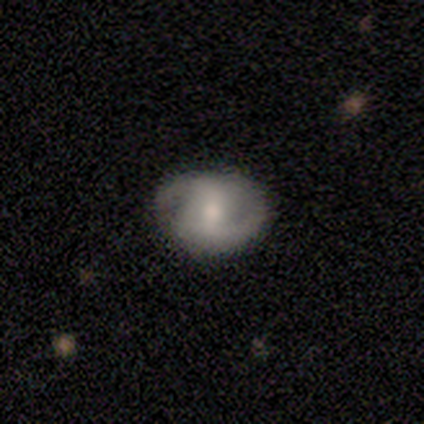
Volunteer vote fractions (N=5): Q: Smooth or featured?
A: featured or disk (60%); runner-up: smooth (40%)
Q: Edge-on disk?
A: no (100%)
Q: Bar?
A: strong (67%); runner-up: weak (33%)
Q: Spiral arms?
A: yes (100%)
Q: Spiral winding?
A: loose (67%); runner-up: tight (33%)
Q: Spiral arm count?
A: 2 (100%)
Q: Bulge size?
A: moderate (100%)
Q: Merging?
A: none (60%); runner-up: minor disturbance (20%)